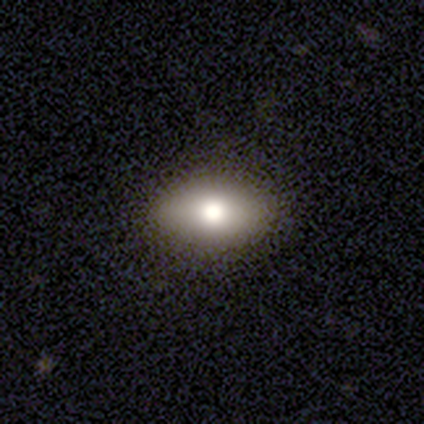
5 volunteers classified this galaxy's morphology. smooth 80%, featured or disk 20%, star or artifact 0%. Down the decision tree: how rounded — round (50%, tied with in between); merging — none (100%).